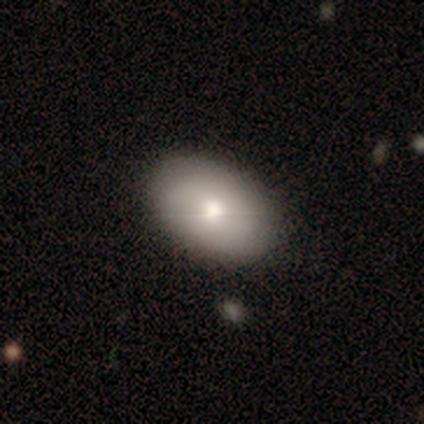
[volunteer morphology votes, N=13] Overall: smooth (85%). How rounded: in between (100%). Merging: none (92%).